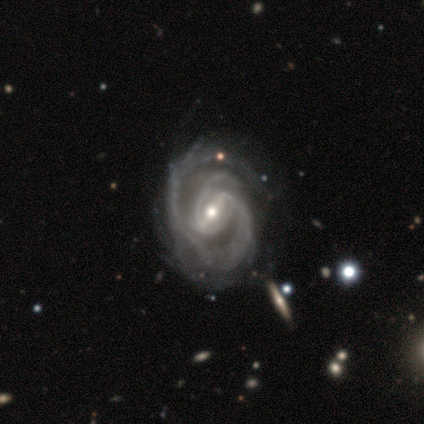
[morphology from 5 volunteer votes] featured or disk 100%, smooth 0%, star or artifact 0%. Down the decision tree: edge-on disk — no (100%); bar — strong (100%); spiral arms — yes (100%); spiral arm count — 2 (60%); spiral winding — medium (60%); bulge size — moderate (80%); merging — none (40%, tied with merger).